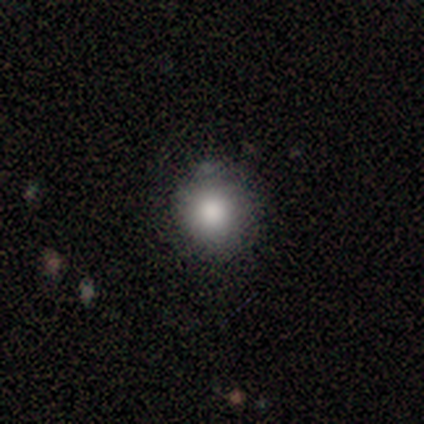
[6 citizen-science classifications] Smooth or featured? 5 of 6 (83%) said smooth. How rounded? 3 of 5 (60%) said round. Merging? 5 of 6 (83%) said none.